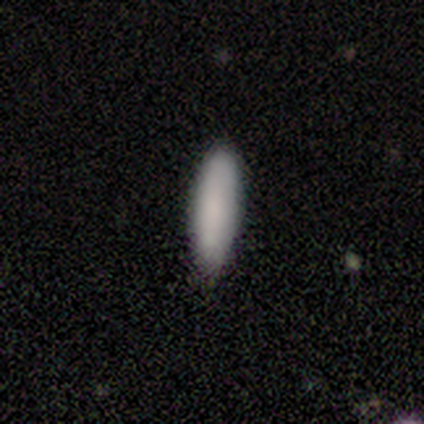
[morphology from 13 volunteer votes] smooth-or-featured: smooth: 92% | featured or disk: 8% | star or artifact: 0%
  how-rounded: in between: 67% | cigar-shaped: 33% | round: 0%
  merging: none: 62% | minor disturbance: 31% | merger: 8% | major disturbance: 0%